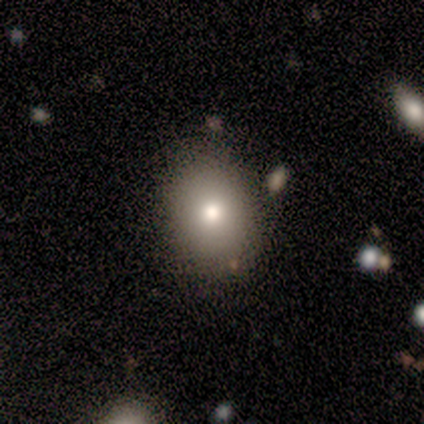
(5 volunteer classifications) Smooth or featured?
  - smooth: 80% *
  - featured or disk: 20%
  - star or artifact: 0%
How rounded?
  - round: 75% *
  - in between: 25%
  - cigar-shaped: 0%
Merging?
  - none: 60% *
  - minor disturbance: 20%
  - major disturbance: 20%
  - merger: 0%